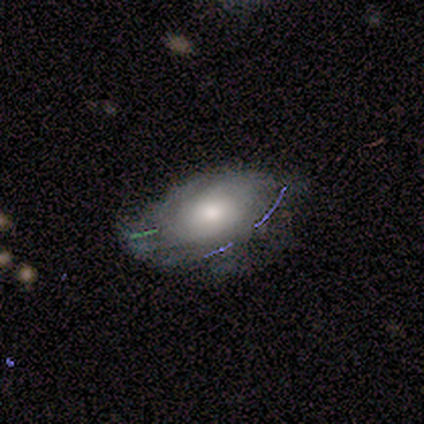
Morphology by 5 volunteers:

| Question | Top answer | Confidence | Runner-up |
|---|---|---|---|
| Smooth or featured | smooth | 60% | featured or disk (40%) |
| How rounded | in between | 100% | — |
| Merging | minor disturbance | 60% | none (40%) |